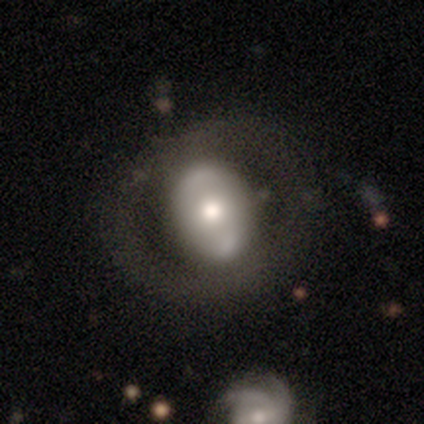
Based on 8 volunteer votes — Smooth or featured? 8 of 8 (100%) said featured or disk. Edge-on disk? 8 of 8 (100%) said no. Bar? 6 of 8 (75%) said no. Spiral arms? 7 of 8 (88%) said no. Bulge size? 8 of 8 (100%) said moderate. Merging? 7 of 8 (88%) said none.